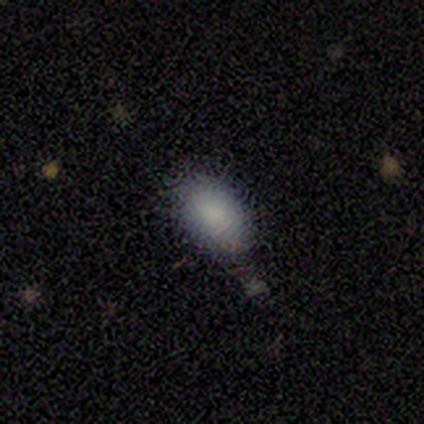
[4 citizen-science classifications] smooth_or_featured: smooth (p=0.75) [alt: star or artifact p=0.25]
how_rounded: in between (p=1.00)
merging: none (p=0.67) [alt: minor disturbance p=0.33]